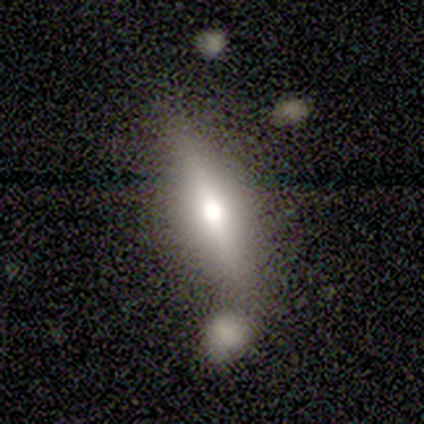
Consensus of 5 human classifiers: Smooth or featured?
  - smooth: 40% * (tied)
  - featured or disk: 40% * (tied)
  - star or artifact: 20%
How rounded?
  - round: 50% * (tied)
  - cigar-shaped: 50% * (tied)
  - in between: 0%
Merging?
  - major disturbance: 50% *
  - none: 25%
  - merger: 25%
  - minor disturbance: 0%